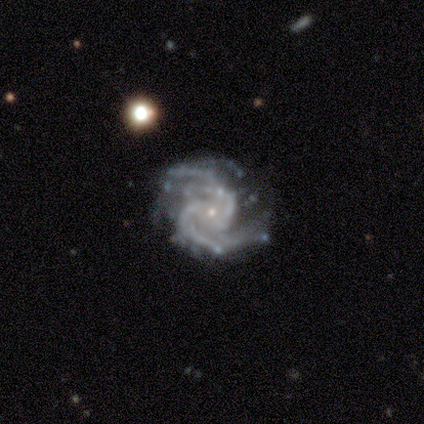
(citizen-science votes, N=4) Smooth or featured? 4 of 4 (100%) said featured or disk. Edge-on disk? 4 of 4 (100%) said no. Bar? 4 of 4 (100%) said no. Spiral arms? 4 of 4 (100%) said yes. Spiral winding? 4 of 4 (100%) said medium. Spiral arm count? 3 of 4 (75%) said 2. Bulge size? 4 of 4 (100%) said small. Merging? 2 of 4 (50%) said none.